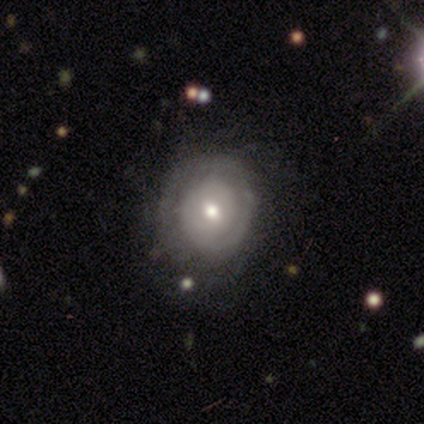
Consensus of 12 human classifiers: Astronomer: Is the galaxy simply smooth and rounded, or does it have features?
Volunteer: featured or disk — 75%.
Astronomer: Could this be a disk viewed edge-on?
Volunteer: no — 100%.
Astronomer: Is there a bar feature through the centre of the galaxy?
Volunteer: no — 67%.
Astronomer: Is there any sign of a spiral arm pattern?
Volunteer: yes — 78%.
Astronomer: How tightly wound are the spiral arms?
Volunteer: tight — 100%.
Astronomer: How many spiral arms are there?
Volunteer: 1 — 57%.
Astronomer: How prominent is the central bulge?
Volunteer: small — 56%.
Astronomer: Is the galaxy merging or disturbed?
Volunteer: none — 91%.